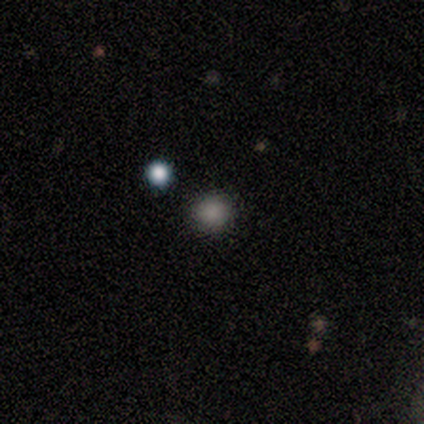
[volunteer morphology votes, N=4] Smooth or featured? 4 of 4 (100%) said smooth. How rounded? 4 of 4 (100%) said round. Merging? 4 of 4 (100%) said none.